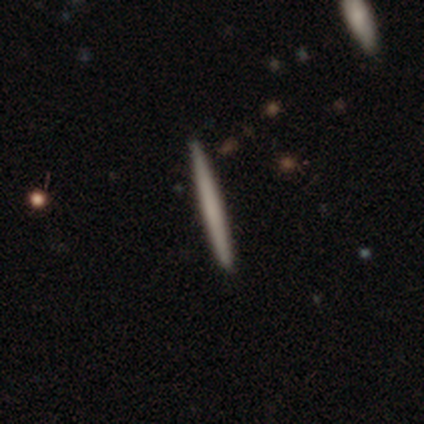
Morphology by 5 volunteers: smooth-or-featured: smooth: 80% | featured or disk: 20% | star or artifact: 0%
  how-rounded: cigar-shaped: 100% | round: 0% | in between: 0%
  merging: none: 100% | minor disturbance: 0% | major disturbance: 0% | merger: 0%